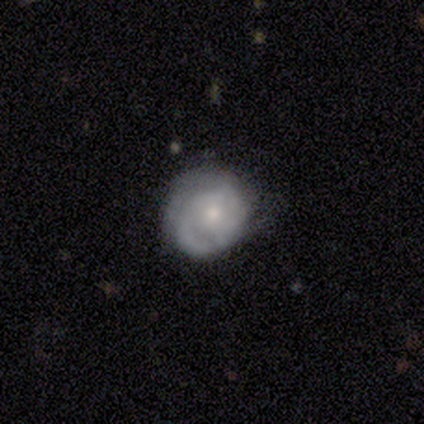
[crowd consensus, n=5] Smooth or featured: featured or disk — 60% (smooth — 20%)
Edge-on disk: no — 100%
Bar: no — 67% (weak — 33%)
Spiral arms: yes — 67% (no — 33%)
Spiral winding: medium — 50% (tied with loose — 50%)
Spiral arm count: 1 — 50% (tied with 3 — 50%)
Bulge size: small — 100%
Merging: none — 75% (minor disturbance — 25%)